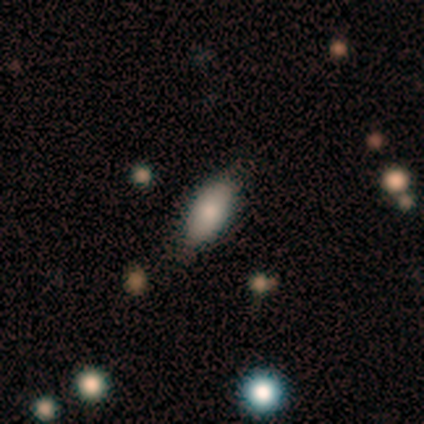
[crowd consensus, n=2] A smooth galaxy with no disk features (100%) that is in between round and cigar-shaped (100%). Merging: none (100%).